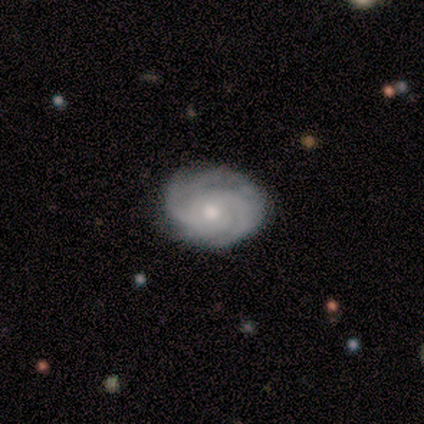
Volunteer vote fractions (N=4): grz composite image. It shows a featured or disk galaxy (100%) with no bar (75%), 3 (50%) tight (75%) spiral arms (100%) and a small central bulge (75%). Merging: none (75%).